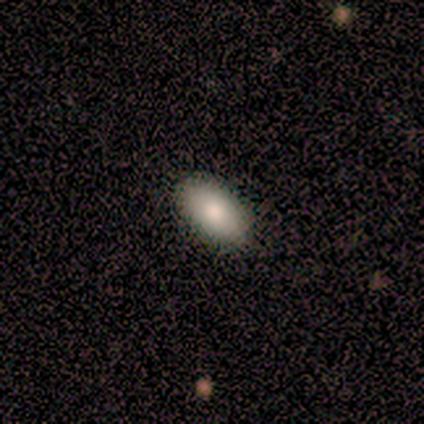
Overall: smooth (70%). How rounded: in between (86%). Merging: none (100%).